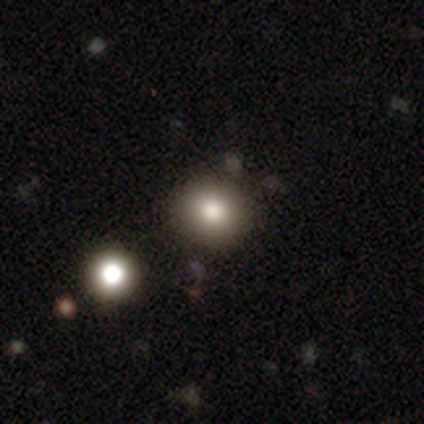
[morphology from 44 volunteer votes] smooth-or-featured: smooth: 70% | star or artifact: 23% | featured or disk: 7%
  how-rounded: round: 71% | in between: 29% | cigar-shaped: 0%
  merging: none: 79% | minor disturbance: 18% | merger: 3% | major disturbance: 0%